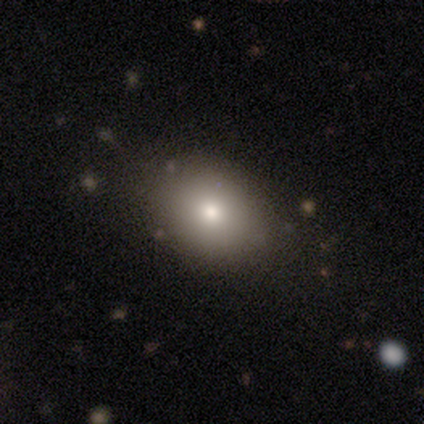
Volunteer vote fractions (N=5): Smooth or featured?
  - smooth: 80% *
  - featured or disk: 20%
  - star or artifact: 0%
How rounded?
  - in between: 75% *
  - round: 25%
  - cigar-shaped: 0%
Merging?
  - none: 60% *
  - minor disturbance: 40%
  - major disturbance: 0%
  - merger: 0%